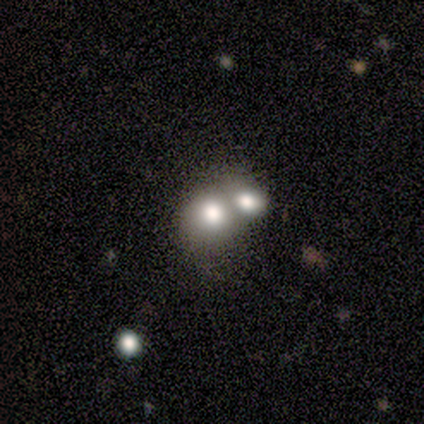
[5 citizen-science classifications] A smooth galaxy with no disk features (40%, tied with featured or disk) that is in between round and cigar-shaped (100%). Merging: merger (75%).